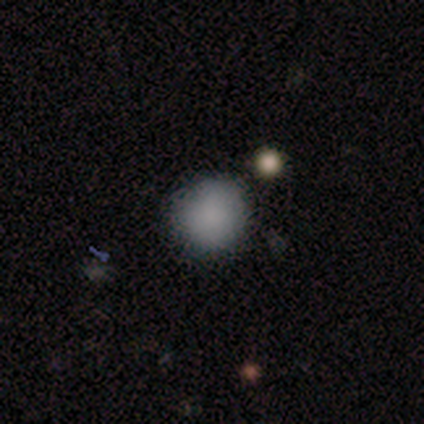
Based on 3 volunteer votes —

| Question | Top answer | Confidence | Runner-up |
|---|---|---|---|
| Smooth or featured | smooth | 100% | — |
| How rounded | round | 100% | — |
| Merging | none | 100% | — |